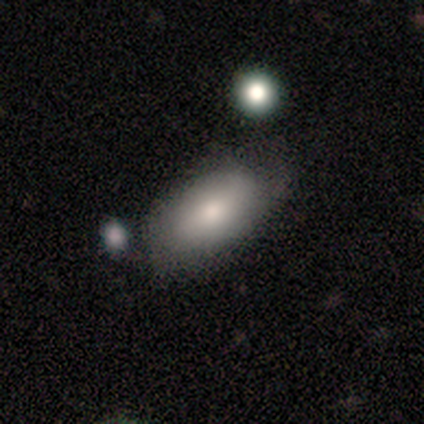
Smooth or featured? 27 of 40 (68%) said smooth. How rounded? 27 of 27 (100%) said in between. Merging? 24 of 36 (67%) said none.